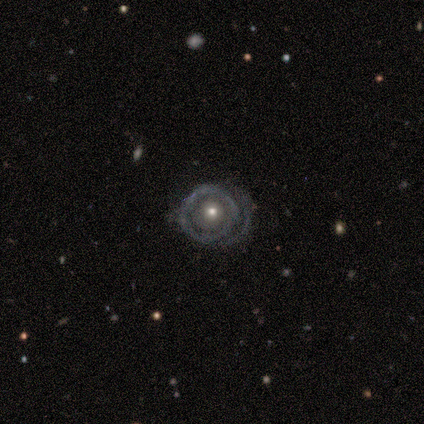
Volunteers were most divided on "edge-on disk" (2-way tie): yes: 50%, no: 50%; "edge-on bulge" (2-way tie): none: 50%, rounded: 50%, boxy: 0%. More confident: smooth or featured — featured or disk (80%); merging — none (80%).